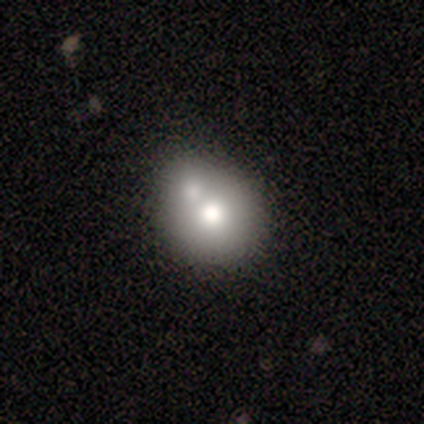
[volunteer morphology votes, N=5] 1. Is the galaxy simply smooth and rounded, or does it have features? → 60% smooth, 40% featured or disk, 0% star or artifact.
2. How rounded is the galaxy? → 100% round, 0% in between, 0% cigar-shaped.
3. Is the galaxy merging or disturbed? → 60% none, 40% merger, 0% minor disturbance, 0% major disturbance.